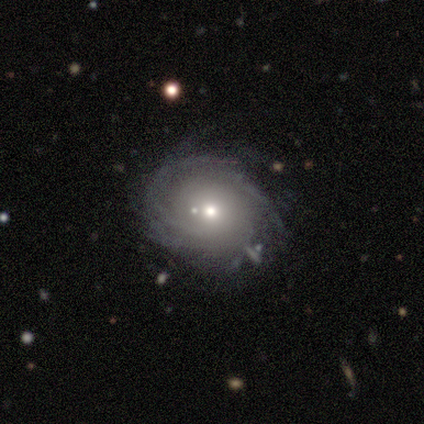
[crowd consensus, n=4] This appears to be a smooth galaxy with no disk features (50%, tied with featured or disk) that is round (100%). Merging: none (25%, tied with minor disturbance, major disturbance and merger).